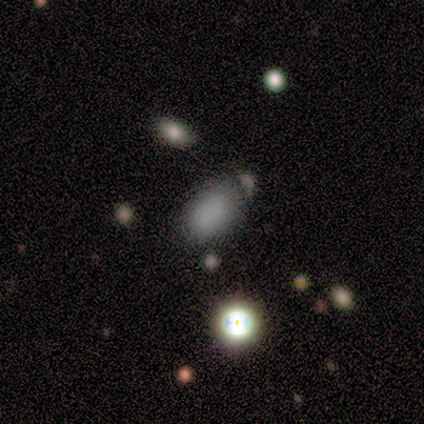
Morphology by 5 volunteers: A smooth galaxy with no disk features (80%) that is in between round and cigar-shaped (100%). Merging: none (80%).